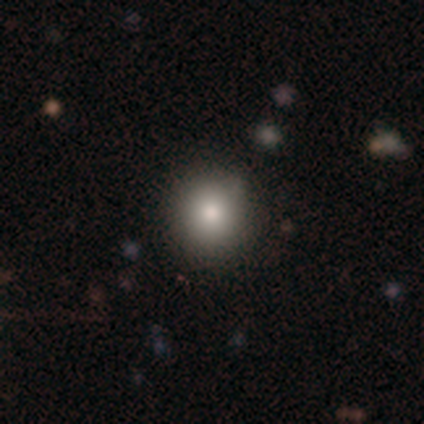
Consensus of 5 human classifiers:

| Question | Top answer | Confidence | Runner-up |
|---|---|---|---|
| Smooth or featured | smooth | 80% | star or artifact (20%) |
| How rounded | round | 75% | in between (25%) |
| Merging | none | 100% | — |